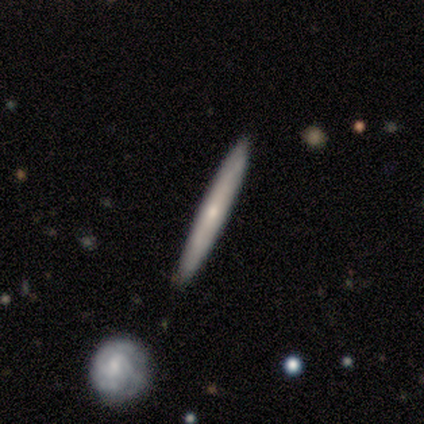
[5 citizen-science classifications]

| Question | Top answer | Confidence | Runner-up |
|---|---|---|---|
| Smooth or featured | smooth | 60% | featured or disk (40%) |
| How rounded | cigar-shaped | 100% | — |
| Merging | none | 100% | — |